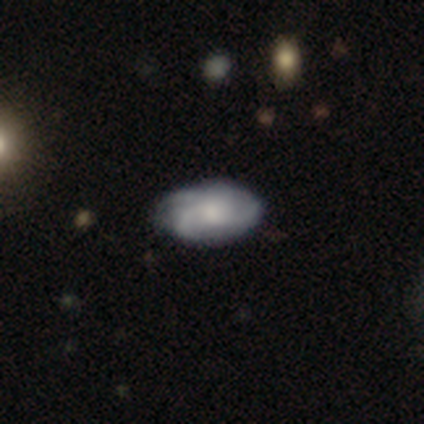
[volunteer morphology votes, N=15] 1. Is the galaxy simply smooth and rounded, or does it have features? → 80% featured or disk, 20% smooth, 0% star or artifact.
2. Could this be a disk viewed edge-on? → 100% no, 0% yes.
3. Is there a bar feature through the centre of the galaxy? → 92% no, 8% weak, 0% strong.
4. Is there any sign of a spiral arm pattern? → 83% yes, 17% no.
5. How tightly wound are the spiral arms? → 50% tight, 40% medium, 10% loose.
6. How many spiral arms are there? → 60% 3, 20% can't tell, 10% 2, 10% 4, 0% 1, 0% more than 4.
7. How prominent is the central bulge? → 50% moderate, 33% small, 8% large, 8% none, 0% dominant.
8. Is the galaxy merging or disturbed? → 80% none, 13% minor disturbance, 7% major disturbance, 0% merger.